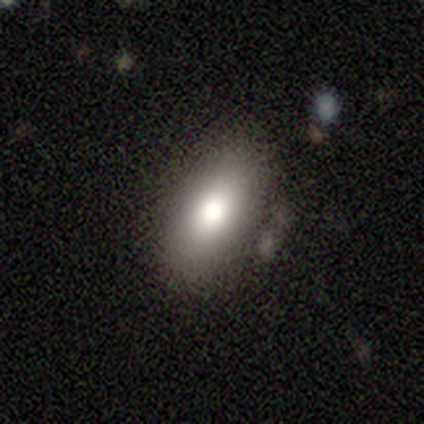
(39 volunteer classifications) Smooth or featured: smooth — 79% (featured or disk — 18%)
How rounded: in between — 94% (cigar-shaped — 6%)
Merging: none — 84% (minor disturbance — 11%)